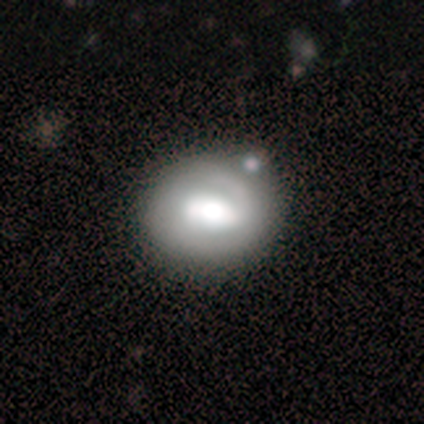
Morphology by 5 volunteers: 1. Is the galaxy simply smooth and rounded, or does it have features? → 80% featured or disk, 20% smooth, 0% star or artifact.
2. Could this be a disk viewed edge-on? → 75% no, 25% yes.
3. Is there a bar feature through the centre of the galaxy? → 67% weak, 33% no, 0% strong.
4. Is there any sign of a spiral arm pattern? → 67% yes, 33% no.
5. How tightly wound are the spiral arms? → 50% tight (tied), 50% medium (tied), 0% loose.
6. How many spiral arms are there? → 100% can't tell, 0% 1, 0% 2, 0% 3, 0% 4, 0% more than 4.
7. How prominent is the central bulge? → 67% moderate, 33% large, 0% dominant, 0% small, 0% none.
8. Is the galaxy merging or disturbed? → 60% none, 20% minor disturbance, 20% merger, 0% major disturbance.